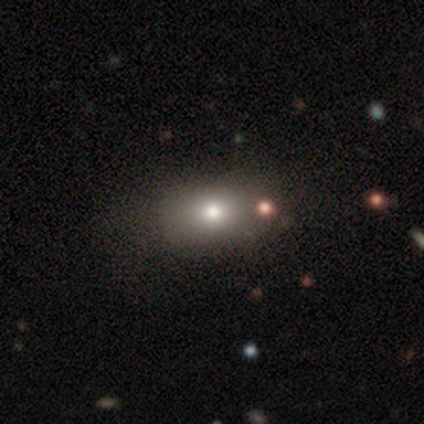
Q: Smooth or featured?
A: smooth (80%); runner-up: featured or disk (20%)
Q: How rounded?
A: round (50%); tied with: in between (50%)
Q: Merging?
A: none (100%)